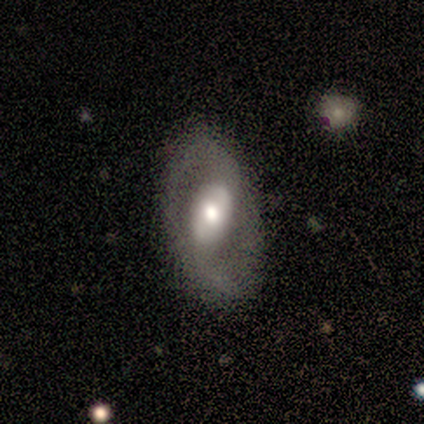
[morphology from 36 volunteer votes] This appears to be a featured or disk galaxy (78%) with a weak bar (37%), 2 (76%) loose (65%) spiral arms (63%) and a moderate central bulge (67%). Merging: none (74%).